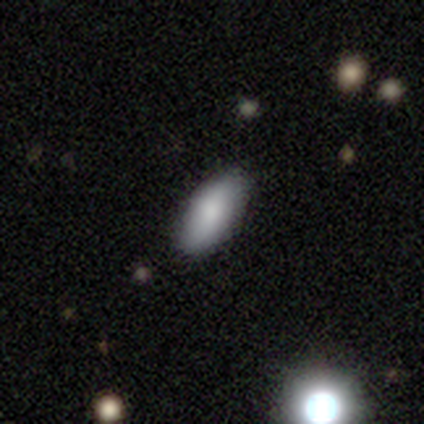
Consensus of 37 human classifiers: smooth_or_featured: smooth (p=0.76) [alt: featured or disk p=0.14]
how_rounded: in between (p=0.86) [alt: cigar-shaped p=0.14]
merging: none (p=0.91) [alt: minor disturbance p=0.09]